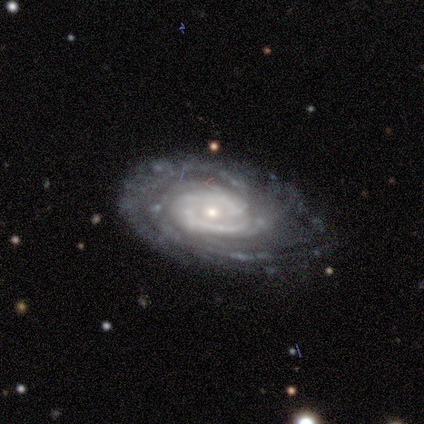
Overall: featured or disk (100%). Edge-on disk: no (100%). Bar: no (100%). Spiral arms: yes (100%). Spiral arm count: 3 (40%, tied with can't tell). Spiral winding: tight (100%). Bulge size: small (100%). Merging: none (60%; minor disturbance 40%).